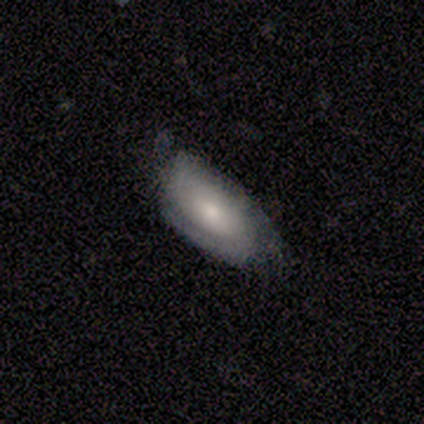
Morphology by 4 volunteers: Smooth or featured: featured or disk — 75% (smooth — 25%)
Edge-on disk: no — 100%
Bar: no — 67% (weak — 33%)
Spiral arms: yes — 100%
Spiral winding: medium — 67% (tight — 33%)
Spiral arm count: 2 — 100%
Bulge size: moderate — 100%
Merging: none — 75% (minor disturbance — 25%)